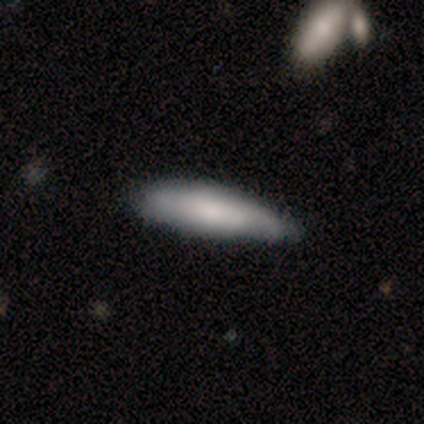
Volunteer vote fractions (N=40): smooth 72%, featured or disk 25%, star or artifact 2%. Down the decision tree: how rounded — cigar-shaped (69%); merging — none (56%).